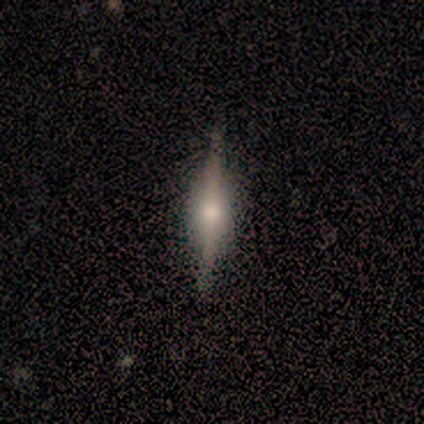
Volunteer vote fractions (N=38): Smooth or featured? featured or disk (79%)
Edge-on disk? yes (100%)
Edge-on bulge? rounded (70%)
Merging? none (92%)